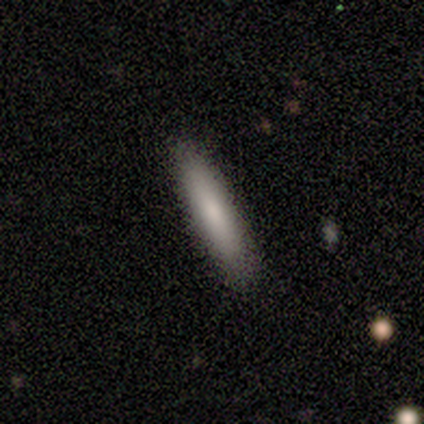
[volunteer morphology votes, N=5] Smooth or featured: smooth — 80% (featured or disk — 20%)
How rounded: cigar-shaped — 100%
Merging: none — 80% (merger — 20%)